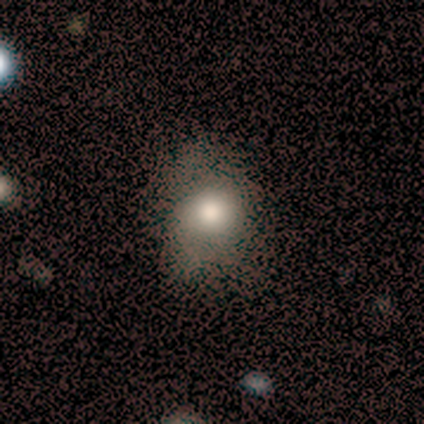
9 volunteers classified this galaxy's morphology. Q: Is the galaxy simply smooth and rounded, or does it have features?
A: smooth — 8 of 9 (89%).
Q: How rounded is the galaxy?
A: round — 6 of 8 (75%).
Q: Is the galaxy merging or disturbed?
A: none — 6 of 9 (67%).